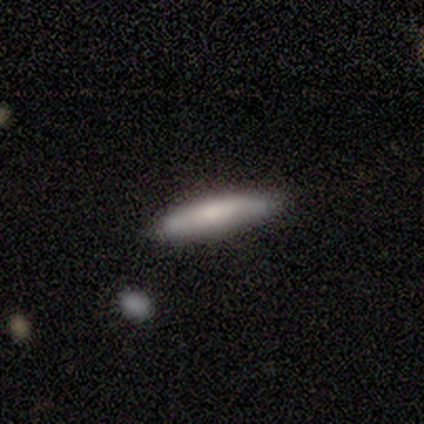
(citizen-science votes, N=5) Smooth or featured? 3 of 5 (60%) said smooth. How rounded? 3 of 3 (100%) said cigar-shaped. Merging? 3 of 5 (60%) said none.